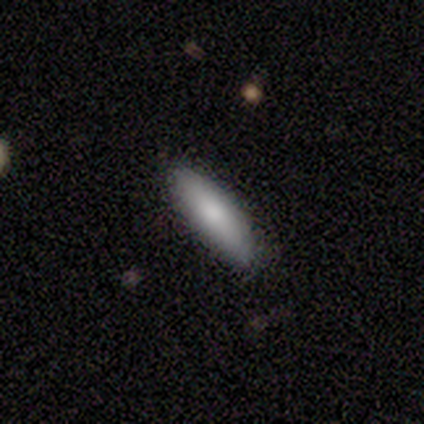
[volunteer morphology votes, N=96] Smooth or featured? smooth (80%)
How rounded? cigar-shaped (56%)
Merging? none (92%)